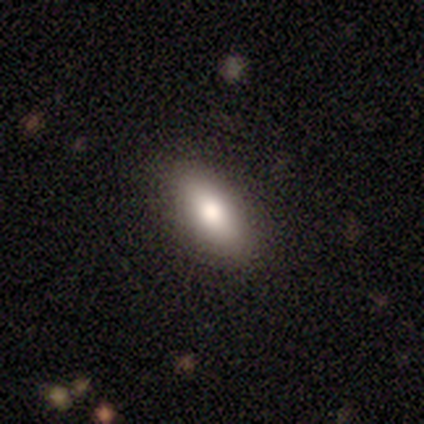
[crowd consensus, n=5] Overall: smooth (100%). How rounded: in between (100%). Merging: none (100%).